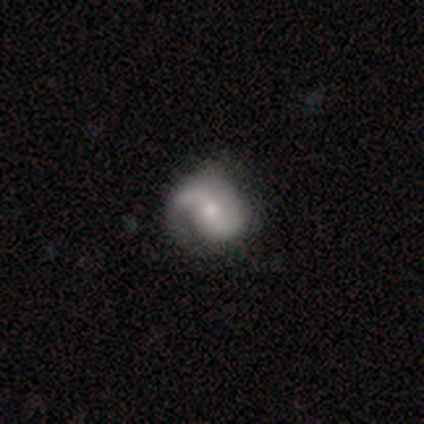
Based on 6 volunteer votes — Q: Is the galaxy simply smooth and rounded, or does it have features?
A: featured or disk — 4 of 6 (67%).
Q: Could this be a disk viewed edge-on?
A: no — 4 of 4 (100%).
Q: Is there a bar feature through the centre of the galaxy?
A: no — 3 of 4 (75%).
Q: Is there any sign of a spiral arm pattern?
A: yes — 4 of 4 (100%).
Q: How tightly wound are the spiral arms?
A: medium — 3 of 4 (75%).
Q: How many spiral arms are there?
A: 2 — 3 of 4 (75%).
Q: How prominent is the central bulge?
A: small — 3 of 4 (75%).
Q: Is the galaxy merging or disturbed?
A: none — 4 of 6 (67%).